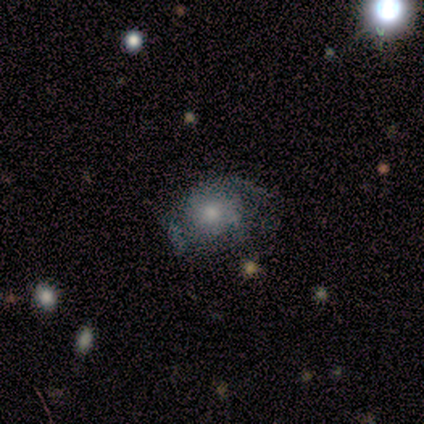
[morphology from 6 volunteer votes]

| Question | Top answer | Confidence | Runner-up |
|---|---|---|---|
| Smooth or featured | smooth | 50% | tied: featured or disk (50%) |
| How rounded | in between | 67% | round (33%) |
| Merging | minor disturbance | 50% | none (33%) |